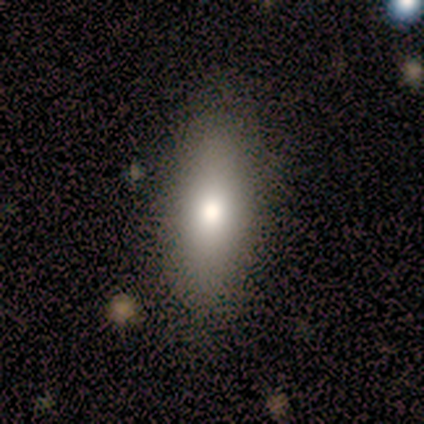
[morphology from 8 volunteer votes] type=smooth (100%); roundness=in between (100%); merging=none (62%).